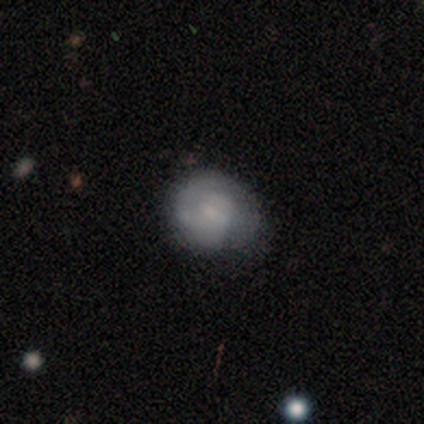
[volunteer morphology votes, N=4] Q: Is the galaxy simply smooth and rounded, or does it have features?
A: smooth — 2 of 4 (50%, tied with featured or disk).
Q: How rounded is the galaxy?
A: round — 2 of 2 (100%).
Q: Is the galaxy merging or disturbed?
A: none — 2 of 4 (50%, tied with minor disturbance).